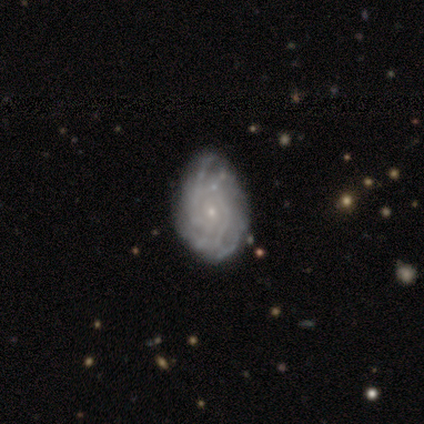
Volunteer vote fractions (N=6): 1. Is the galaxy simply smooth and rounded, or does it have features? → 83% featured or disk, 17% star or artifact, 0% smooth.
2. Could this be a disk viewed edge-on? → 100% no, 0% yes.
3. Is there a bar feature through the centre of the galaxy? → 100% no, 0% strong, 0% weak.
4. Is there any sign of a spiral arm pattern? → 100% yes, 0% no.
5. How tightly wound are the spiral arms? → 100% tight, 0% medium, 0% loose.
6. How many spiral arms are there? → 40% 2, 20% 4, 20% more than 4, 20% can't tell, 0% 1, 0% 3.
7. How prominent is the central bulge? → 100% small, 0% dominant, 0% large, 0% moderate, 0% none.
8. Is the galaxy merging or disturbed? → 60% minor disturbance, 20% none, 20% major disturbance, 0% merger.